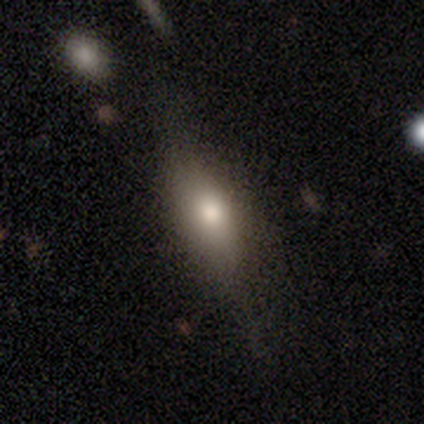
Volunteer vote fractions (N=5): Q: Smooth or featured?
A: smooth (80%); runner-up: featured or disk (20%)
Q: How rounded?
A: in between (100%)
Q: Merging?
A: none (100%)